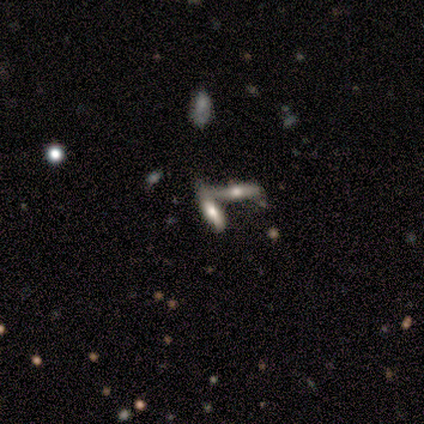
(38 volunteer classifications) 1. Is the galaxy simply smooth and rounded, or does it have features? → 50% smooth, 42% featured or disk, 8% star or artifact.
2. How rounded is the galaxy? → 68% cigar-shaped, 32% in between, 0% round.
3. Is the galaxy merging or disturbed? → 74% merger, 14% none, 6% minor disturbance, 6% major disturbance.